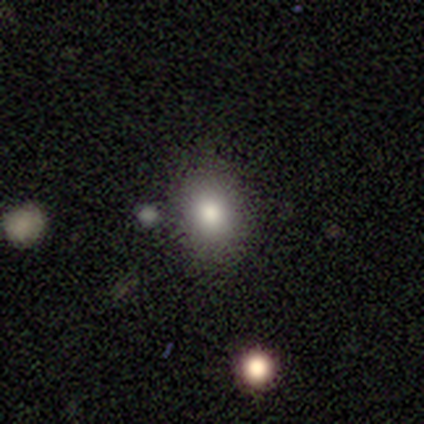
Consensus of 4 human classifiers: smooth_or_featured: smooth (p=0.50) [tied with: star or artifact p=0.50]
how_rounded: round (p=0.50) [tied with: in between p=0.50]
merging: none (p=1.00)